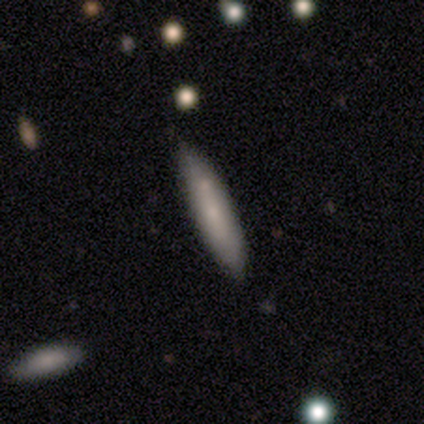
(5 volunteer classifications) Smooth or featured: smooth — 60% (featured or disk — 40%)
How rounded: in between — 67% (cigar-shaped — 33%)
Merging: none — 100%